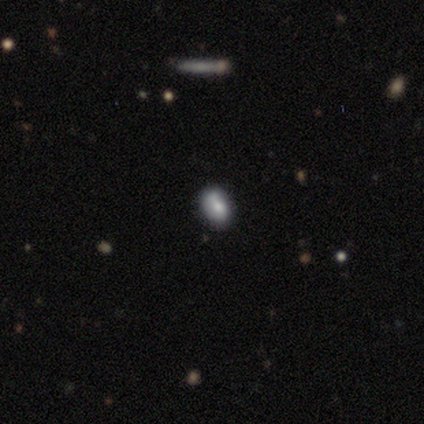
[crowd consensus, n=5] Overall: smooth (60%; star or artifact 40%). How rounded: in between (100%). Merging: none (67%; minor disturbance 33%).